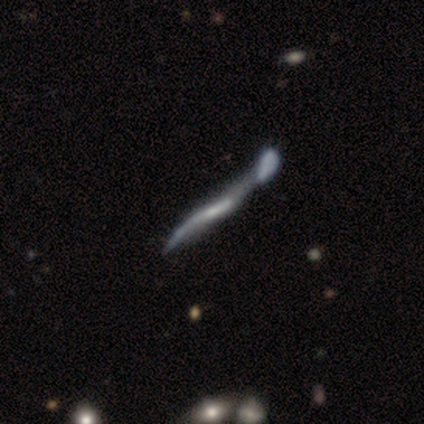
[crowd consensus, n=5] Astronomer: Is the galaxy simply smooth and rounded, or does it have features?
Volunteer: featured or disk — 80%.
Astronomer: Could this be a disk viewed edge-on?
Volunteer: no — 75%.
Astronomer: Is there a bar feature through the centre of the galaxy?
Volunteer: strong — 33%, tied with weak and no at 33%.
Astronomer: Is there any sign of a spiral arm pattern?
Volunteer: yes — 67%.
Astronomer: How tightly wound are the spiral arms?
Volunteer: loose — 100%.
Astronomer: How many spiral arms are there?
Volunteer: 2 — 100%.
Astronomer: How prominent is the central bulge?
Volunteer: small — 100%.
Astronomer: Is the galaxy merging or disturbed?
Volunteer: merger — 60% (runner-up: none, 40%).